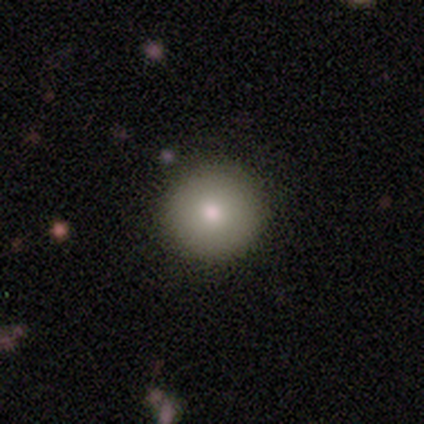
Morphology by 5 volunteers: smooth-or-featured: smooth: 80% | star or artifact: 20% | featured or disk: 0%
  how-rounded: round: 100% | in between: 0% | cigar-shaped: 0%
  merging: none: 75% | minor disturbance: 25% | major disturbance: 0% | merger: 0%